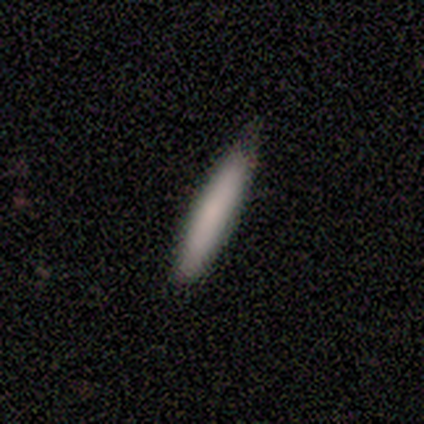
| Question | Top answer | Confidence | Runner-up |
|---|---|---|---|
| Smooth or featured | smooth | 100% | — |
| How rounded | cigar-shaped | 100% | — |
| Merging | none | 60% | minor disturbance (40%) |